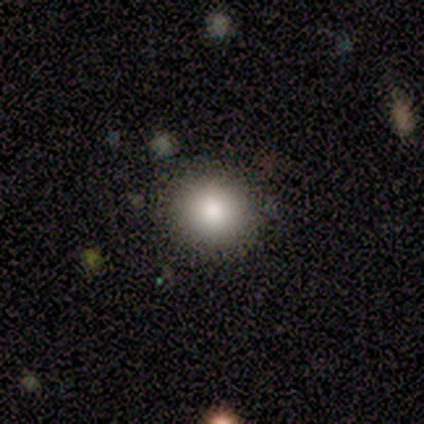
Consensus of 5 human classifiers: Smooth or featured? 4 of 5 (80%) said smooth. How rounded? 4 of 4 (100%) said round. Merging? 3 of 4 (75%) said none.